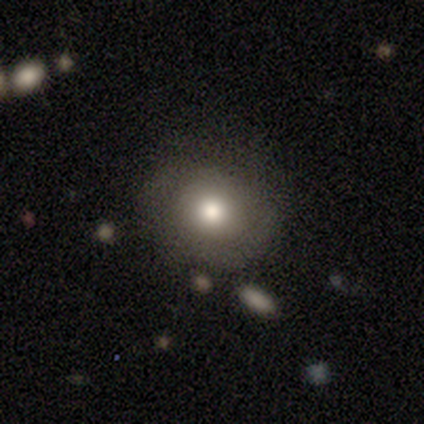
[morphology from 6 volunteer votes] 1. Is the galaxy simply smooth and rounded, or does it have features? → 50% smooth (tied), 50% featured or disk (tied), 0% star or artifact.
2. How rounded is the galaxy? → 100% round, 0% in between, 0% cigar-shaped.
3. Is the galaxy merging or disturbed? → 50% none, 33% minor disturbance, 17% merger, 0% major disturbance.